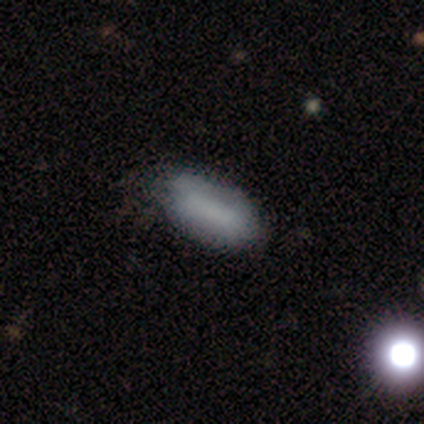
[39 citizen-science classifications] Smooth or featured? smooth (87%)
How rounded? in between (94%)
Merging? none (78%)